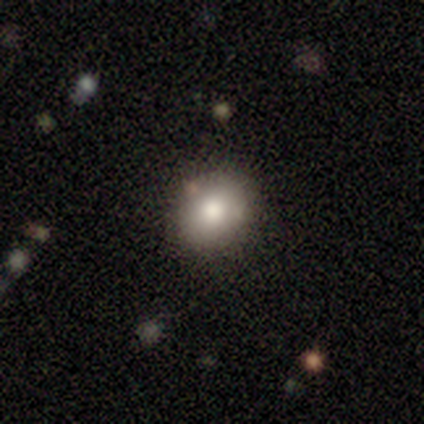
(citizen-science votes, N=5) smooth 80%, featured or disk 20%, star or artifact 0%. Down the decision tree: how rounded — round (50%, tied with in between); merging — none (80%).